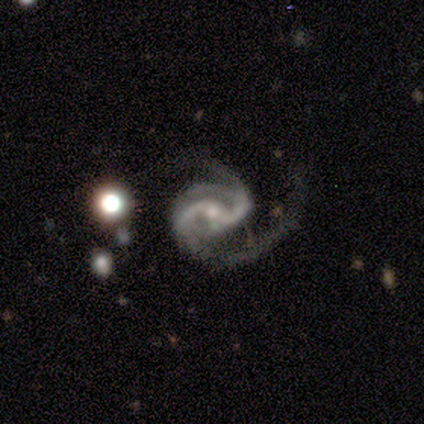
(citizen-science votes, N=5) Smooth or featured? featured or disk (100%)
Edge-on disk? no (100%)
Bar? weak (60%)
Spiral arms? yes (100%)
Spiral winding? medium (80%)
Spiral arm count? 2 (80%)
Bulge size? moderate (60%)
Merging? none (80%)